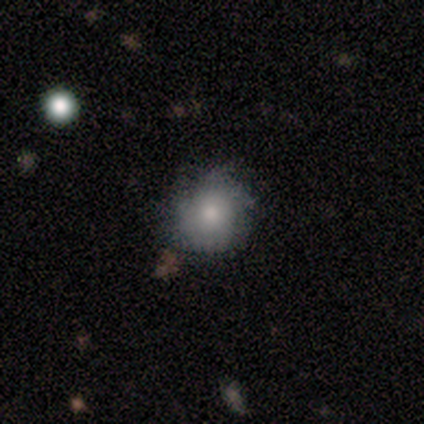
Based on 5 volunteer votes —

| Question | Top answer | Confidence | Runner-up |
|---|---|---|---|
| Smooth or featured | smooth | 80% | featured or disk (20%) |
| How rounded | round | 100% | — |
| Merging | none | 80% | minor disturbance (20%) |